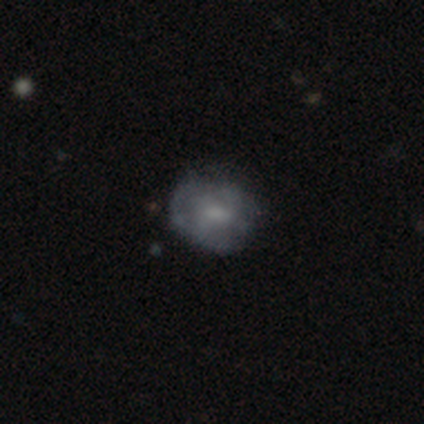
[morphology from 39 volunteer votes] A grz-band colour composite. It shows a featured or disk galaxy (54%) with no bar (55%), no spiral arms (70%) and a small central bulge (40%). Merging: none (81%).